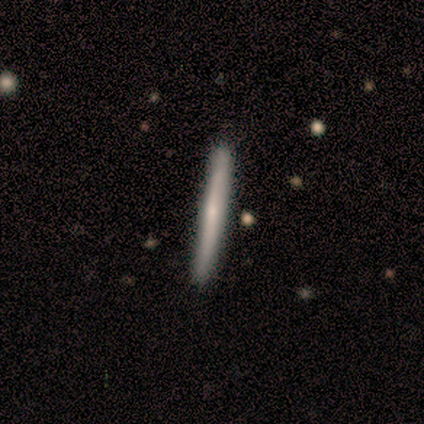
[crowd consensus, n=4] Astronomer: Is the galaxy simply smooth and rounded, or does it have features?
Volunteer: featured or disk — 75%.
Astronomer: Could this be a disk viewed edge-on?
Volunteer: yes — 100%.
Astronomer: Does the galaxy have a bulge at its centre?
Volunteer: rounded — 67%.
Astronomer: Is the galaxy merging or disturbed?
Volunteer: none — 100%.